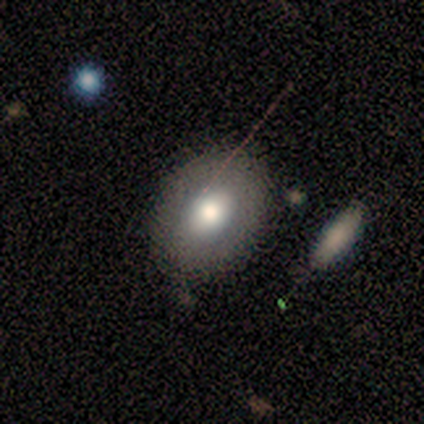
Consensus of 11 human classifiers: Morphology: type=featured or disk (55%); edge-on=no (100%); bar=no (83%); spiral arms=no (83%); bulge=moderate (83%); merging=none (80%).